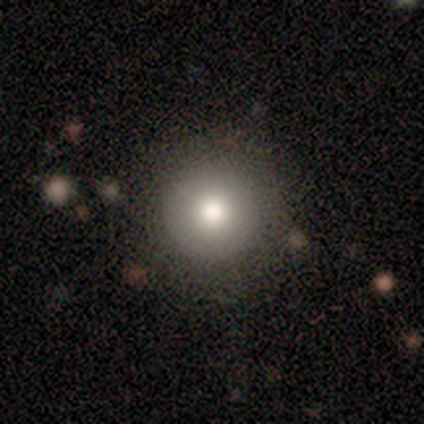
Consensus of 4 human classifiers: Morphology: type=smooth (100%); roundness=round (100%); merging=none (50%).